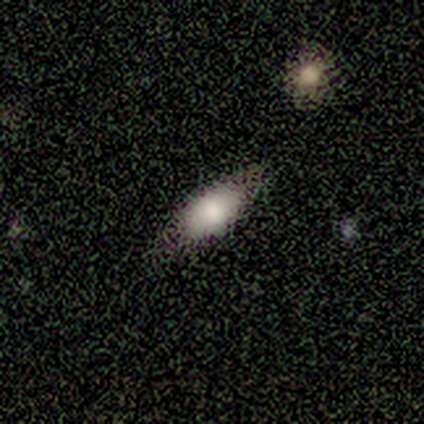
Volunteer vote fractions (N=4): smooth_or_featured: smooth (p=0.50) [alt: featured or disk p=0.25]
how_rounded: in between (p=0.50) [tied with: cigar-shaped p=0.50]
merging: none (p=1.00)